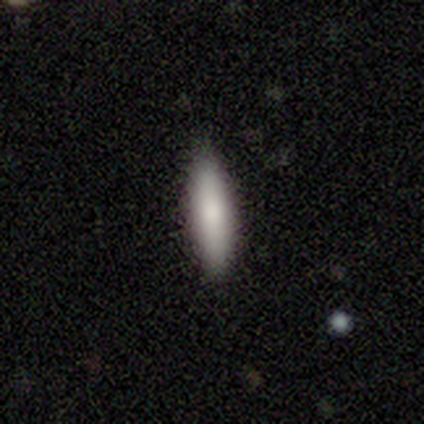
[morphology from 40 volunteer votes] Smooth or featured: smooth — 80% (featured or disk — 12%)
How rounded: cigar-shaped — 69% (in between — 31%)
Merging: none — 89% (minor disturbance — 8%)